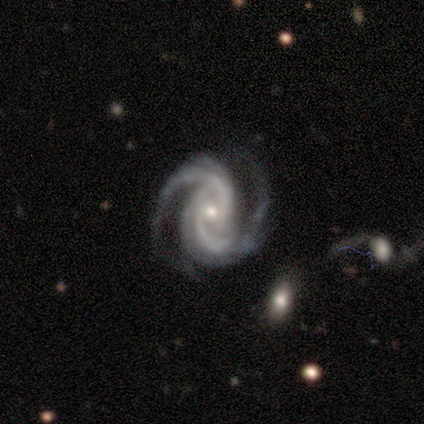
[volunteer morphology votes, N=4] A featured or disk galaxy (100%) with no bar (100%), 2 (100%) medium (75%) spiral arms (100%) and a small central bulge (100%).

Vote fractions:
- Smooth or featured? featured or disk: 100% / smooth: 0% / star or artifact: 0%
- Edge-on disk? no: 100% / yes: 0%
- Bar? no: 100% / strong: 0% / weak: 0%
- Spiral arms? yes: 100% / no: 0%
- Spiral winding? medium: 75% / tight: 25% / loose: 0%
- Spiral arm count? 2: 100% / 1: 0% / 3: 0% / 4: 0% / more than 4: 0% / can't tell: 0%
- Bulge size? small: 100% / dominant: 0% / large: 0% / moderate: 0% / none: 0%
- Merging? none: 75% / minor disturbance: 25% / major disturbance: 0% / merger: 0%